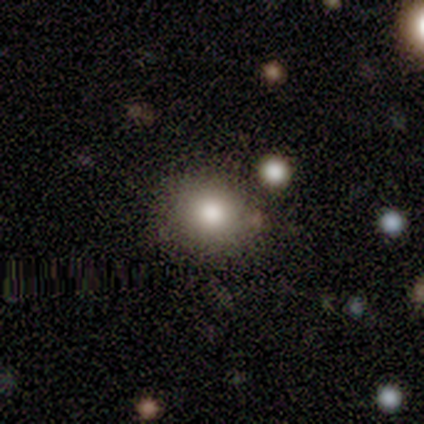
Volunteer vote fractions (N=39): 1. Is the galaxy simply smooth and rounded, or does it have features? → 77% smooth, 15% featured or disk, 8% star or artifact.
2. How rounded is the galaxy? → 67% round, 33% in between, 0% cigar-shaped.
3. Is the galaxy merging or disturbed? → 53% none, 8% minor disturbance, 8% merger, 0% major disturbance.